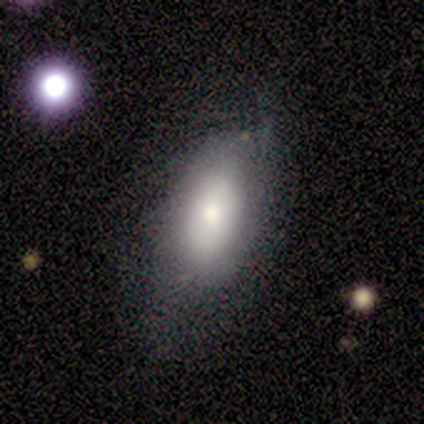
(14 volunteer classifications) Smooth or featured? smooth (71%)
How rounded? in between (100%)
Merging? minor disturbance (67%)